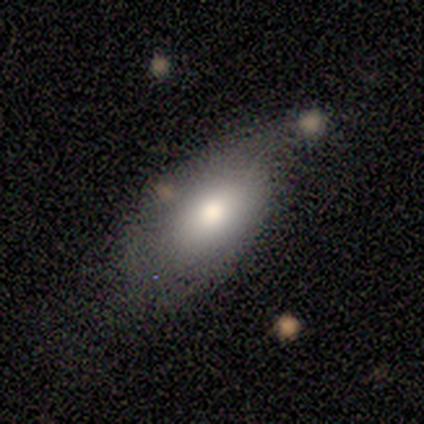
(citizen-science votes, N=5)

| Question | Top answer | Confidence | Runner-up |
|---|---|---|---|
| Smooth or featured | smooth | 80% | featured or disk (20%) |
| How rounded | in between | 100% | — |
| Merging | minor disturbance | 60% | none (20%) |